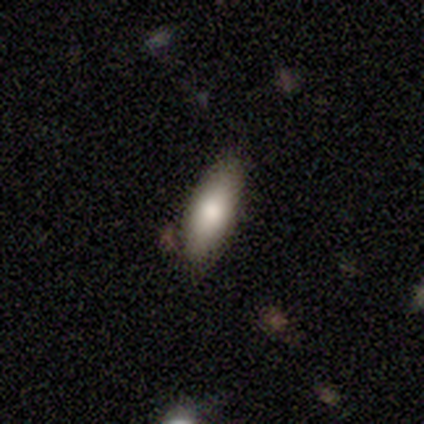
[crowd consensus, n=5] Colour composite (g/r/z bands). It shows a smooth galaxy with no disk features (80%) that is in between round and cigar-shaped (50%, tied with cigar-shaped). Merging: none (100%).